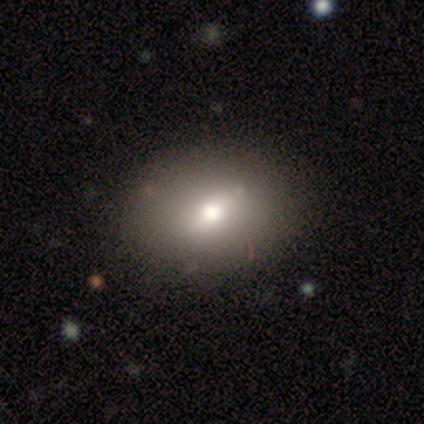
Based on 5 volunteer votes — Overall: smooth (60%; featured or disk 20%). How rounded: round (67%; in between 33%). Merging: none (100%).